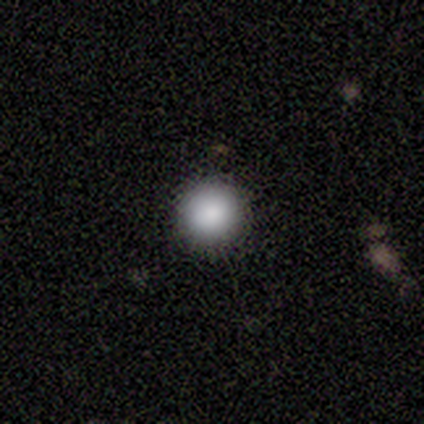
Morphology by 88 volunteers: A smooth galaxy with no disk features (84%) that is round (99%).

Vote fractions:
- Smooth or featured? smooth: 84% / star or artifact: 14% / featured or disk: 2%
- How rounded? round: 99% / in between: 1% / cigar-shaped: 0%
- Merging? none: 97% / minor disturbance: 3% / major disturbance: 0% / merger: 0%